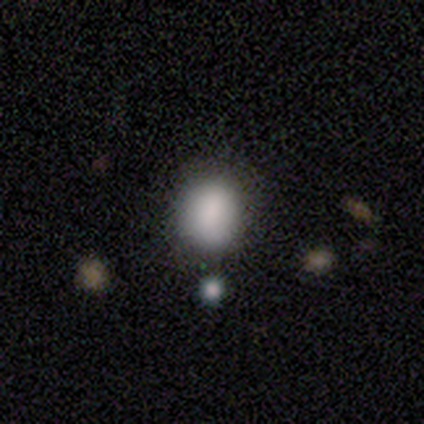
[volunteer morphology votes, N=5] This is clearly a smooth galaxy (100%). How rounded: clearly in between (100%). Merging: clearly none (100%).